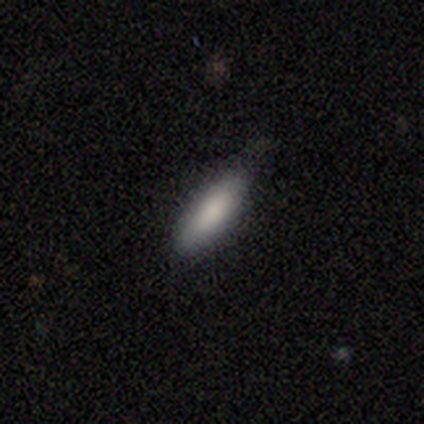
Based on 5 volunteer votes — A smooth galaxy with no disk features (100%) that is in between round and cigar-shaped (60%). Merging: none (80%).